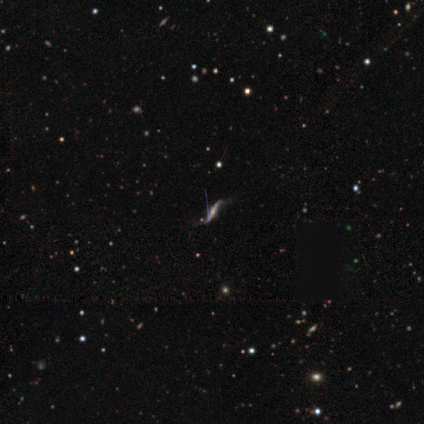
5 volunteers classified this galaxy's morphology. This appears to be a featured or disk galaxy (80%) with a strong bar (33%, tied with weak and no), 2 (100%) loose (100%) spiral arms (100%) and a moderate central bulge (67%). Merging: none (75%).